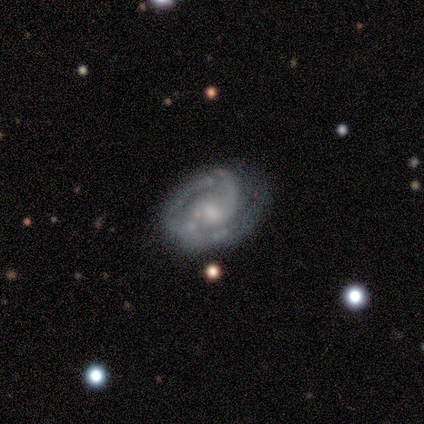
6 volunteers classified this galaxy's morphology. This is clearly a featured or disk galaxy (100%). It is clearly not viewed edge-on (83%). Bar: likely no (60%). Spiral arm pattern: clearly yes (100%). Spiral arm count: likely 2 (60%). Spiral winding: clearly medium (80%). Central bulge: likely moderate (60%). Merging: clearly none (83%).